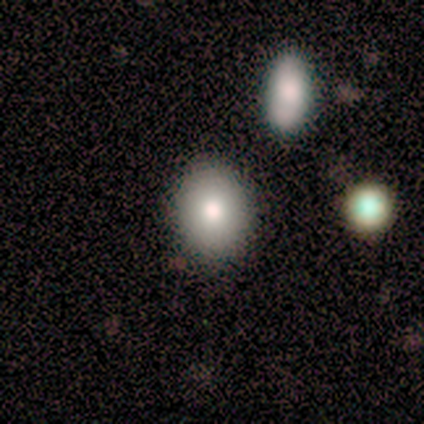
smooth-or-featured: smooth: 80% | star or artifact: 20% | featured or disk: 0%
  how-rounded: round: 50% (tied) | in between: 50% (tied) | cigar-shaped: 0%
  merging: none: 100% | minor disturbance: 0% | major disturbance: 0% | merger: 0%